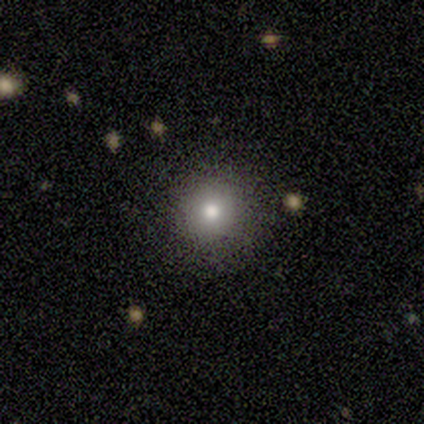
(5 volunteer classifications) Overall: smooth (80%). How rounded: round (100%). Merging: none (80%).